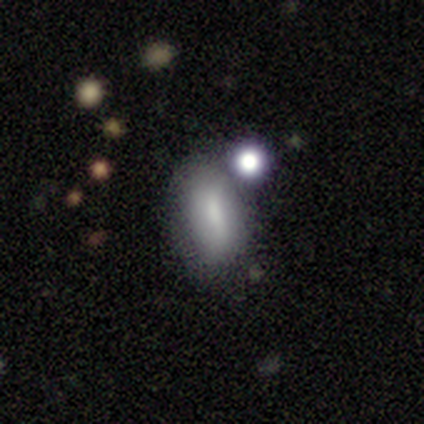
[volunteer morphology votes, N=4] A smooth galaxy with no disk features (100%) that is in between round and cigar-shaped (100%).

Vote fractions:
- Smooth or featured? smooth: 100% / featured or disk: 0% / star or artifact: 0%
- How rounded? in between: 100% / round: 0% / cigar-shaped: 0%
- Merging? none: 75% / minor disturbance: 25% / major disturbance: 0% / merger: 0%